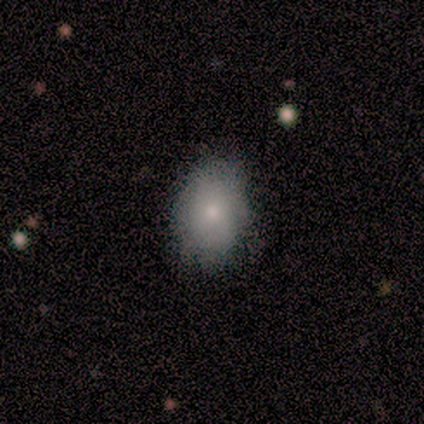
Overall: smooth (78%). How rounded: in between (81%). Merging: none (87%).